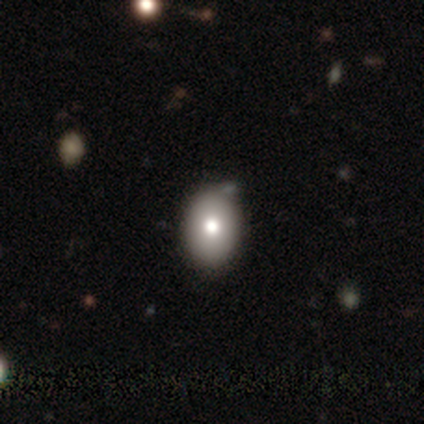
Volunteers were most divided on "merging" (2-way tie): none: 50%, minor disturbance: 50%, major disturbance: 0%, merger: 0%. More confident: how rounded — in between (100%); smooth or featured — smooth (80%).